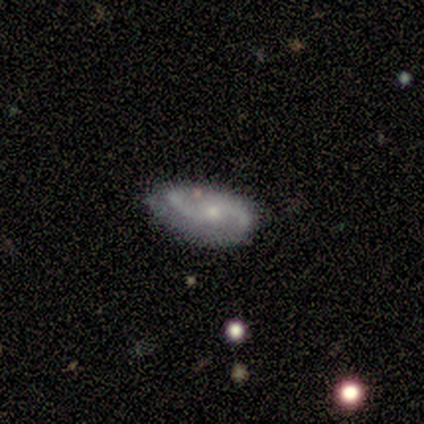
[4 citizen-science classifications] A featured or disk galaxy (75%) with no bar (100%), 2 (100%) tight (67%) spiral arms (100%) and a small central bulge (100%). Merging: minor disturbance (75%).